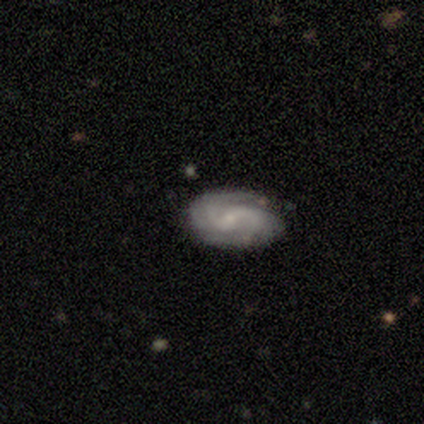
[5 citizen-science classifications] Morphology: type=featured or disk (80%); edge-on=no (100%); bar=weak (75%); spiral arms=yes (100%); winding=medium (75%); arm count=2 (75%); bulge=small (100%); merging=none (80%).